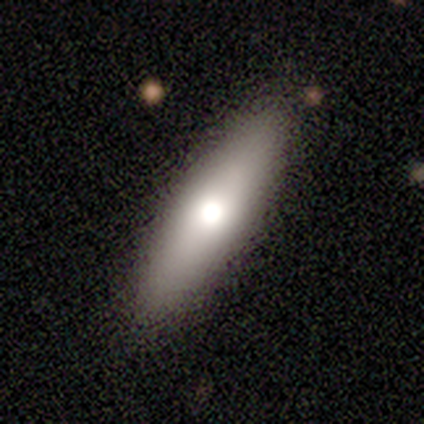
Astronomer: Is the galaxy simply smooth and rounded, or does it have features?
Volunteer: smooth — 80%.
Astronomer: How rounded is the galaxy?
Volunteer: in between — 50%, tied with cigar-shaped at 50%.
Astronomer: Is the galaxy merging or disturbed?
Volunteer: none — 80%.